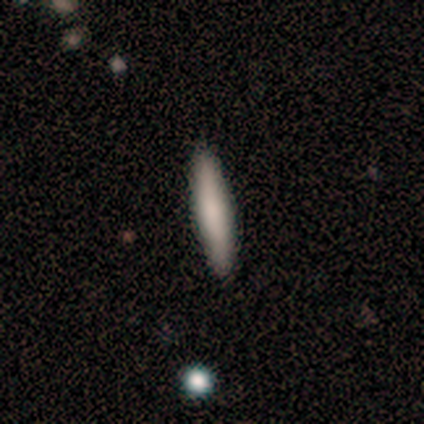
A smooth galaxy with no disk features (100%) that is cigar-shaped (100%).

Vote fractions:
- Smooth or featured? smooth: 100% / featured or disk: 0% / star or artifact: 0%
- How rounded? cigar-shaped: 100% / round: 0% / in between: 0%
- Merging? none: 100% / minor disturbance: 0% / major disturbance: 0% / merger: 0%